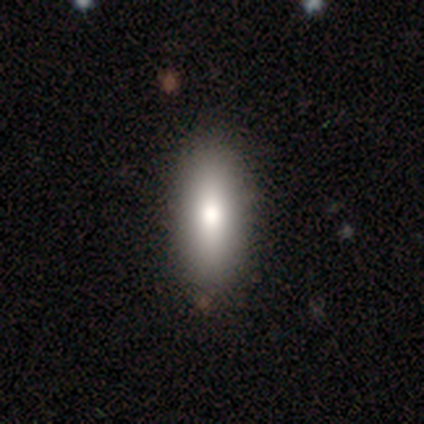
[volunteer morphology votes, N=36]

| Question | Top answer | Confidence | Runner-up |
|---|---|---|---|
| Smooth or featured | smooth | 81% | featured or disk (17%) |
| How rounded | in between | 69% | cigar-shaped (31%) |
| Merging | none | 63% | minor disturbance (6%) |